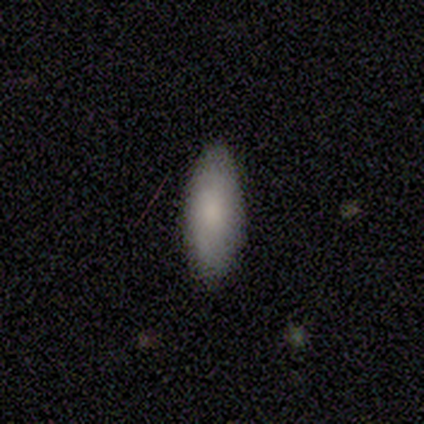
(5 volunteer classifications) Q: Smooth or featured?
A: smooth (100%)
Q: How rounded?
A: in between (80%); runner-up: cigar-shaped (20%)
Q: Merging?
A: none (100%)